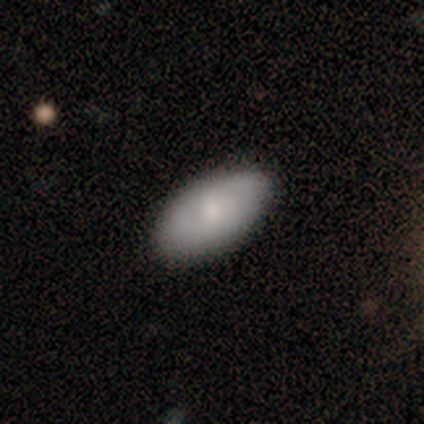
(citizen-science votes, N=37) smooth 73%, featured or disk 24%, star or artifact 3%. Down the decision tree: how rounded — in between (93%); merging — none (89%).